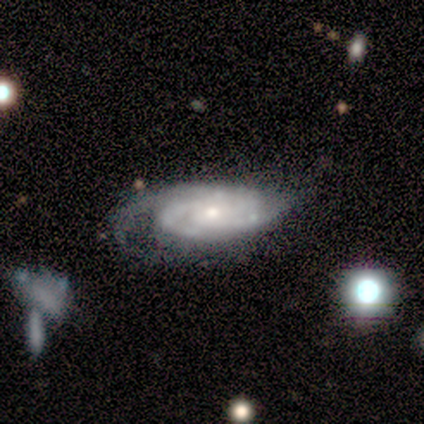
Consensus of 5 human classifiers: Smooth or featured?
  - featured or disk: 100% *
  - smooth: 0%
  - star or artifact: 0%
Edge-on disk?
  - no: 60% *
  - yes: 40%
Bar?
  - no: 100% *
  - strong: 0%
  - weak: 0%
Spiral arms?
  - yes: 100% *
  - no: 0%
Spiral winding?
  - tight: 67% *
  - medium: 33%
  - loose: 0%
Spiral arm count?
  - 3: 67% *
  - can't tell: 33%
  - 1: 0%
  - 2: 0%
  - 4: 0%
  - more than 4: 0%
Bulge size?
  - small: 67% *
  - moderate: 33%
  - dominant: 0%
  - large: 0%
  - none: 0%
Merging?
  - minor disturbance: 60% *
  - major disturbance: 40%
  - none: 0%
  - merger: 0%